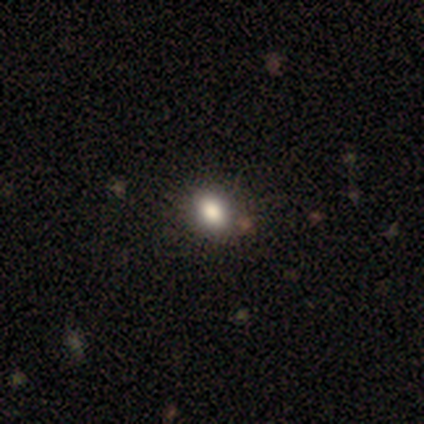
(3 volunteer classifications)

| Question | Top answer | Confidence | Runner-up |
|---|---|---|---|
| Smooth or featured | smooth | 67% | featured or disk (33%) |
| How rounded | round | 100% | — |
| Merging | none | 67% | minor disturbance (33%) |